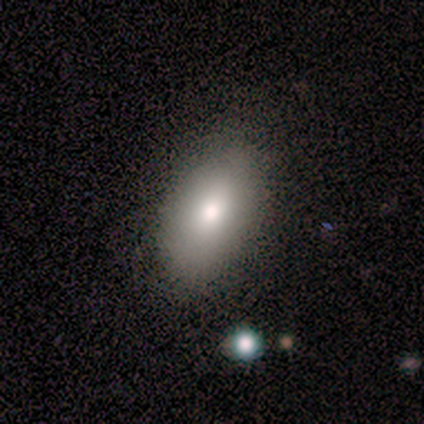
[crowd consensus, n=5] smooth 100%, featured or disk 0%, star or artifact 0%. Down the decision tree: how rounded — in between (100%); merging — none (100%).